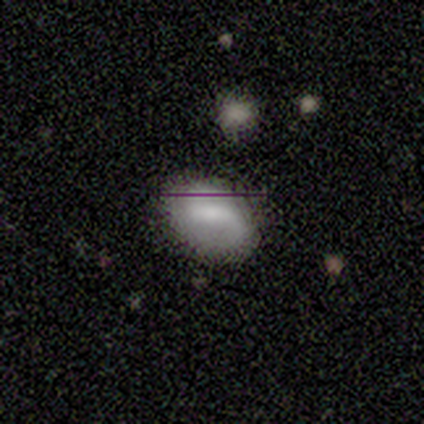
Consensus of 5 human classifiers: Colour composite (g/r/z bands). It shows a smooth galaxy with no disk features (60%) that is in between round and cigar-shaped (67%). Merging: none (60%).